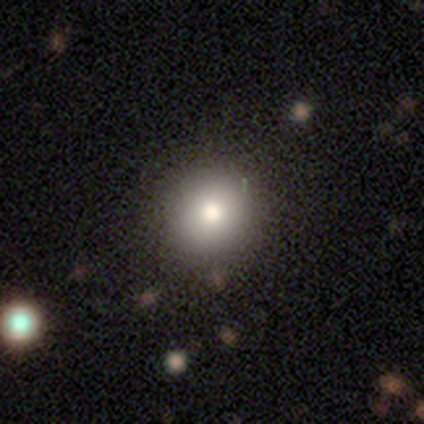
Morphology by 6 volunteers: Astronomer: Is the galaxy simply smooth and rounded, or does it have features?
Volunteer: smooth — 83%.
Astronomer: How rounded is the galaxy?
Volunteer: round — 60% (runner-up: in between, 40%).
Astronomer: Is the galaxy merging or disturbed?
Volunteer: none — 100%.